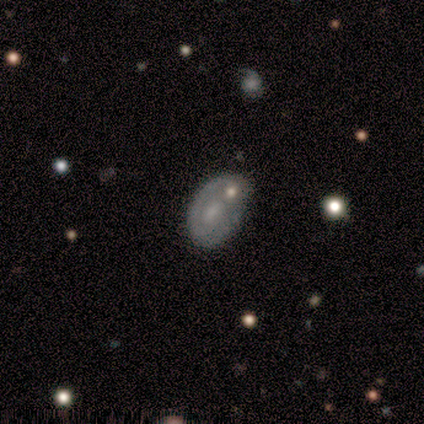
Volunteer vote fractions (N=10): Smooth or featured: featured or disk — 60% (smooth — 40%)
Edge-on disk: no — 67% (yes — 33%)
Bar: no — 75% (weak — 25%)
Spiral arms: yes — 50% (tied with no — 50%)
Spiral winding: tight — 50% (tied with loose — 50%)
Spiral arm count: 2 — 100%
Bulge size: small — 50% (moderate — 25%)
Merging: none — 40% (tied with minor disturbance — 40%)